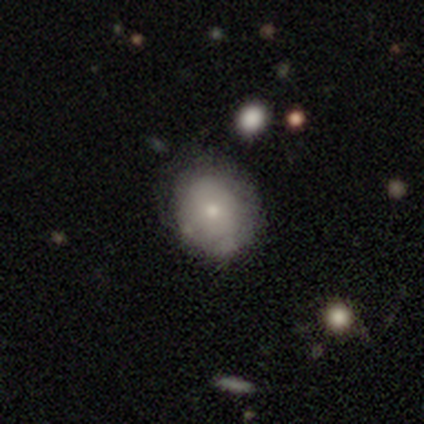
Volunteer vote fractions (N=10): This appears to be a smooth galaxy with no disk features (60%) that is in between round and cigar-shaped (67%). Merging: none (90%).